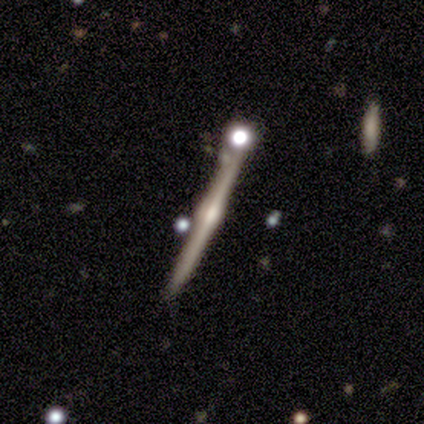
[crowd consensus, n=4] This is likely a featured or disk galaxy (75%). It is clearly viewed edge-on (100%). Edge-on bulge: likely rounded (67%). Merging: clearly none (100%).